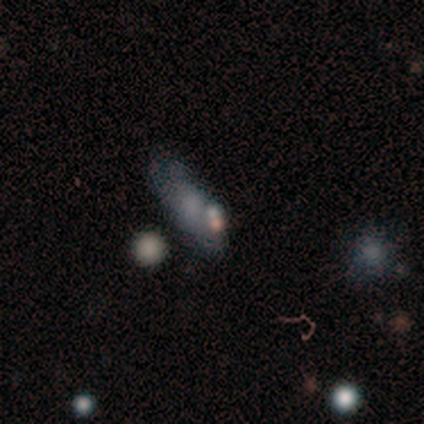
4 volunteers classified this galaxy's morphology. smooth_or_featured: smooth (p=0.75) [alt: star or artifact p=0.25]
how_rounded: cigar-shaped (p=0.67) [alt: in between p=0.33]
merging: none (p=0.67) [alt: merger p=0.33]